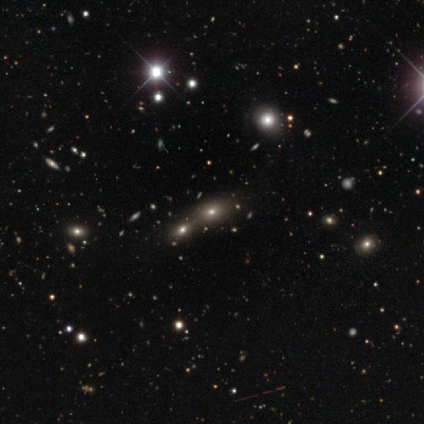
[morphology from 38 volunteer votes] Smooth or featured? smooth (55%)
How rounded? in between (71%)
Merging? merger (48%)